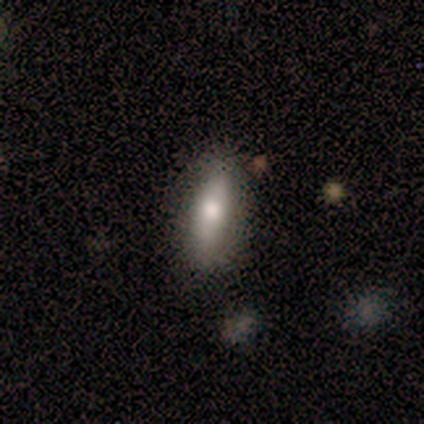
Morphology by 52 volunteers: A smooth galaxy with no disk features (69%) that is in between round and cigar-shaped (69%).

Vote fractions:
- Smooth or featured? smooth: 69% / featured or disk: 25% / star or artifact: 6%
- How rounded? in between: 69% / cigar-shaped: 28% / round: 3%
- Merging? none: 90% / minor disturbance: 8% / merger: 2% / major disturbance: 0%